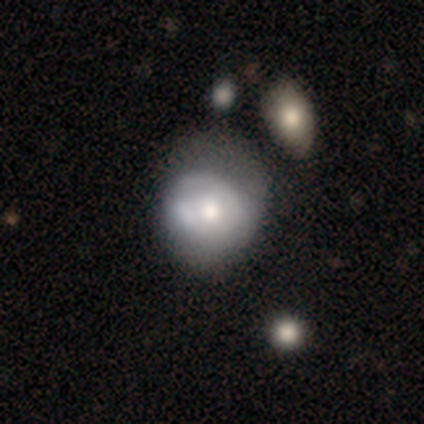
A smooth galaxy with no disk features (80%) that is in between round and cigar-shaped (58%). Merging: none (43%).